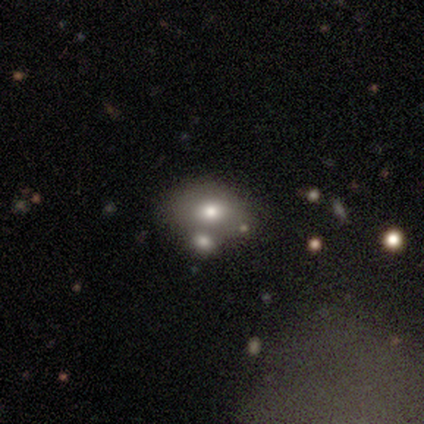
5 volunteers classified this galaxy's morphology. smooth_or_featured: smooth (p=0.60) [alt: featured or disk p=0.20]
how_rounded: in between (p=1.00)
merging: none (p=0.75) [alt: merger p=0.25]